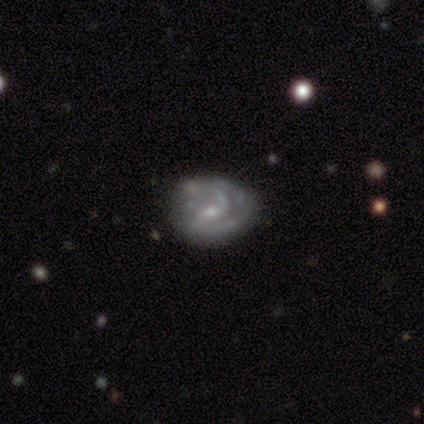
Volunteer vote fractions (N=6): Morphology: type=featured or disk (100%); edge-on=no (100%); bar=weak (83%); spiral arms=yes (67%); winding=tight (50%); arm count=2 (50%, tied with can't tell); bulge=moderate (50%, tied with small); merging=none (67%).